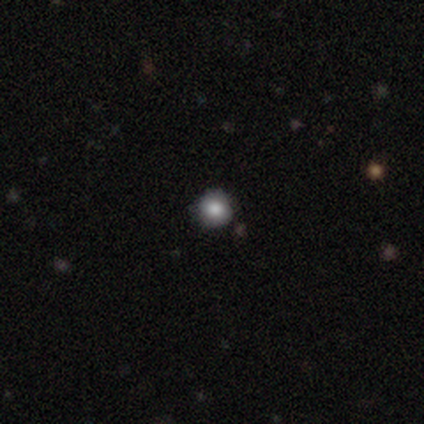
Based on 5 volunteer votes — smooth-or-featured: smooth: 80% | star or artifact: 20% | featured or disk: 0%
  how-rounded: round: 100% | in between: 0% | cigar-shaped: 0%
  merging: none: 100% | minor disturbance: 0% | major disturbance: 0% | merger: 0%